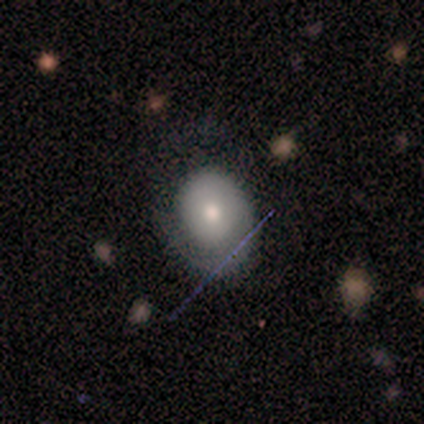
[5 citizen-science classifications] Smooth or featured: featured or disk — 60% (smooth — 20%)
Edge-on disk: no — 100%
Bar: no — 67% (weak — 33%)
Spiral arms: no — 67% (yes — 33%)
Bulge size: moderate — 100%
Merging: none — 50% (tied with minor disturbance — 50%)